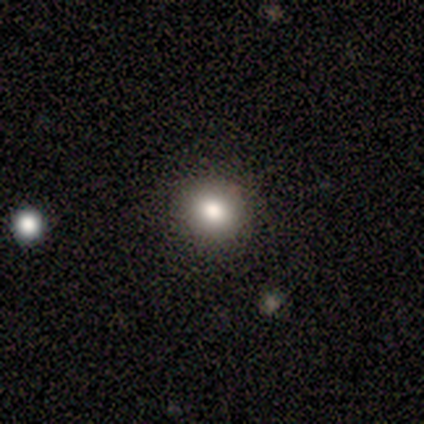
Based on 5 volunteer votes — Smooth or featured: smooth — 80% (star or artifact — 20%)
How rounded: round — 100%
Merging: none — 75% (minor disturbance — 25%)